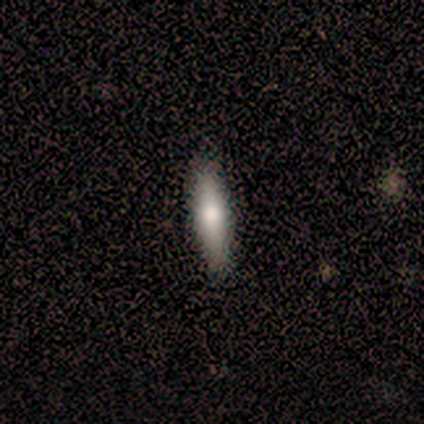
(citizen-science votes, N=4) Volunteers were most divided on "how rounded": cigar-shaped: 75%, in between: 25%, round: 0%. More confident: smooth or featured — smooth (100%); merging — none (100%).